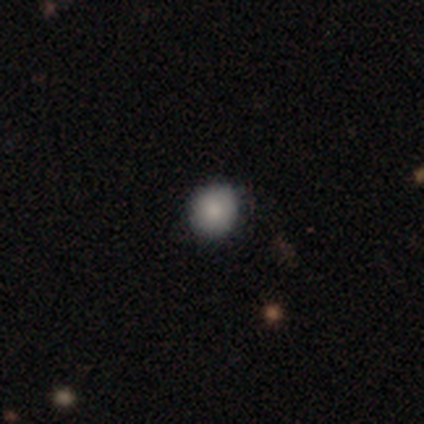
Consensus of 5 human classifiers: A smooth galaxy with no disk features (80%) that is round (75%).

Vote fractions:
- Smooth or featured? smooth: 80% / star or artifact: 20% / featured or disk: 0%
- How rounded? round: 75% / in between: 25% / cigar-shaped: 0%
- Merging? none: 50% (tied) / major disturbance: 50% (tied) / minor disturbance: 0% / merger: 0%